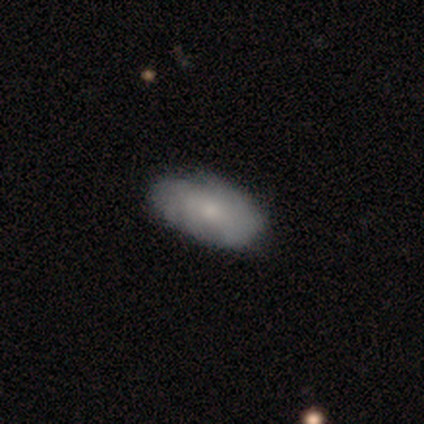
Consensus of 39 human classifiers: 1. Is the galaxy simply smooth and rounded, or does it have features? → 56% smooth, 44% featured or disk, 0% star or artifact.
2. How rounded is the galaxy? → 95% in between, 5% cigar-shaped, 0% round.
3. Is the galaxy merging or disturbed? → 46% none, 21% minor disturbance, 10% major disturbance, 0% merger.